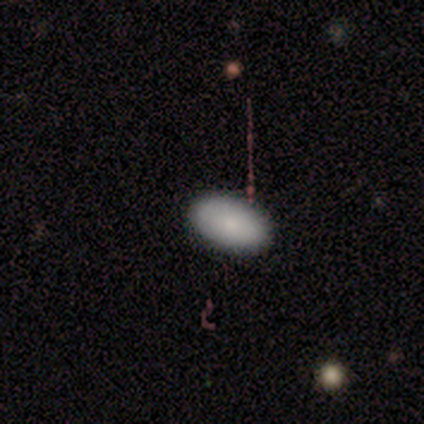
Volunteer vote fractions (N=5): Volunteers were most divided on "smooth or featured": smooth: 80%, featured or disk: 20%, star or artifact: 0%. More confident: how rounded — in between (100%); merging — none (100%).